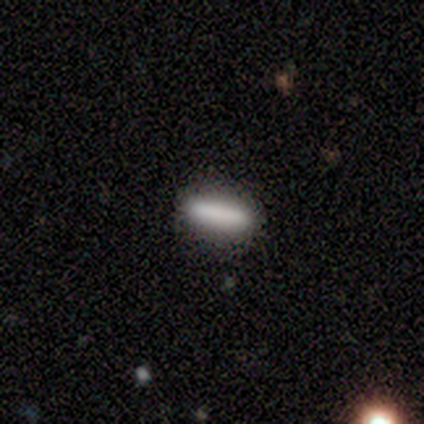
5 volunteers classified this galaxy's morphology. Smooth or featured?
  - smooth: 80% *
  - star or artifact: 20%
  - featured or disk: 0%
How rounded?
  - cigar-shaped: 75% *
  - in between: 25%
  - round: 0%
Merging?
  - none: 100% *
  - minor disturbance: 0%
  - major disturbance: 0%
  - merger: 0%